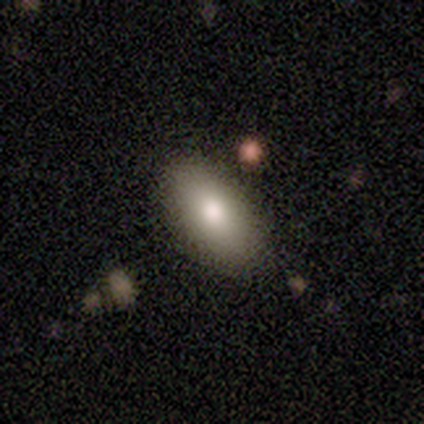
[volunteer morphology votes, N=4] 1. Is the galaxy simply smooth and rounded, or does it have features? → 100% smooth, 0% featured or disk, 0% star or artifact.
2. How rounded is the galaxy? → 100% in between, 0% round, 0% cigar-shaped.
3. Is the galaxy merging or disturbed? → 75% none, 25% major disturbance, 0% minor disturbance, 0% merger.